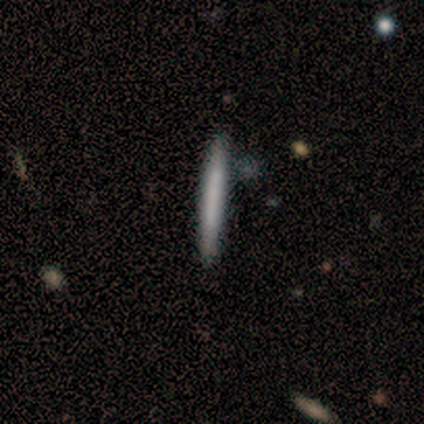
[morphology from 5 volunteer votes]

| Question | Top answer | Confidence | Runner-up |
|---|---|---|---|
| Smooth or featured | smooth | 80% | featured or disk (20%) |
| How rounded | cigar-shaped | 100% | — |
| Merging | none | 80% | minor disturbance (20%) |